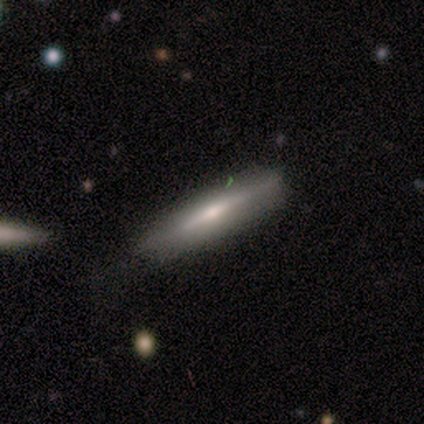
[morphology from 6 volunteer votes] Smooth or featured: smooth — 50% (featured or disk — 33%)
How rounded: cigar-shaped — 67% (in between — 33%)
Merging: none — 80% (minor disturbance — 20%)